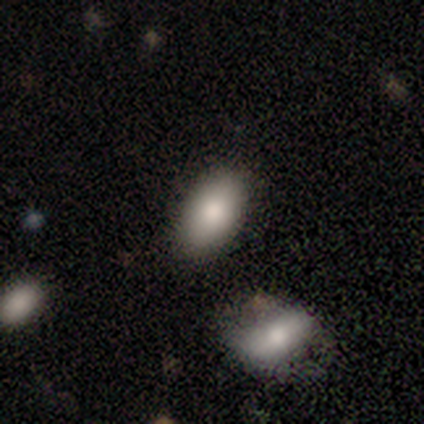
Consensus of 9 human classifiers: A smooth galaxy with no disk features (89%) that is in between round and cigar-shaped (88%). Merging: none (67%).